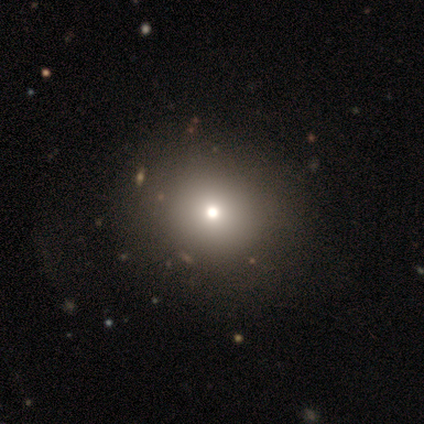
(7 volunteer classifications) Q: Smooth or featured?
A: smooth (86%); runner-up: star or artifact (14%)
Q: How rounded?
A: round (67%); runner-up: in between (33%)
Q: Merging?
A: none (100%)